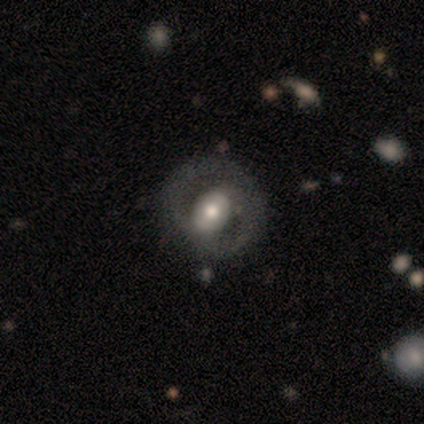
Q: Smooth or featured?
A: featured or disk (75%); runner-up: smooth (25%)
Q: Edge-on disk?
A: no (100%)
Q: Bar?
A: no (67%); runner-up: weak (33%)
Q: Spiral arms?
A: yes (100%)
Q: Spiral winding?
A: medium (100%)
Q: Spiral arm count?
A: 2 (100%)
Q: Bulge size?
A: moderate (100%)
Q: Merging?
A: none (100%)